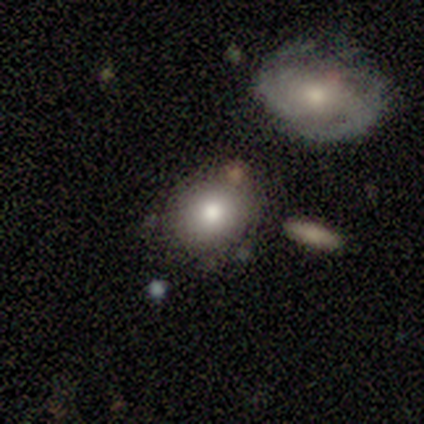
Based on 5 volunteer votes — Smooth or featured?
  - smooth: 80% *
  - featured or disk: 20%
  - star or artifact: 0%
How rounded?
  - round: 75% *
  - in between: 25%
  - cigar-shaped: 0%
Merging?
  - none: 80% *
  - merger: 20%
  - minor disturbance: 0%
  - major disturbance: 0%